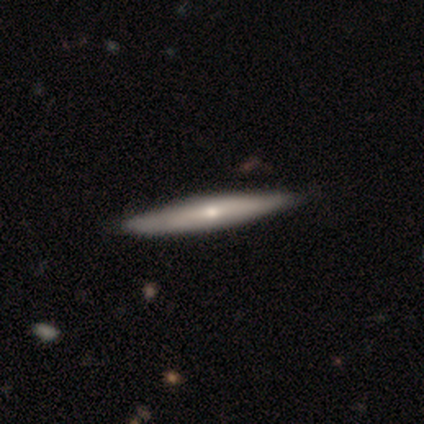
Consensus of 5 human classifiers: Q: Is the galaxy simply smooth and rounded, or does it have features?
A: smooth — 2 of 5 (40%, tied with featured or disk).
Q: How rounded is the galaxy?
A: cigar-shaped — 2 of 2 (100%).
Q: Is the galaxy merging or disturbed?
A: none — 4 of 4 (100%).